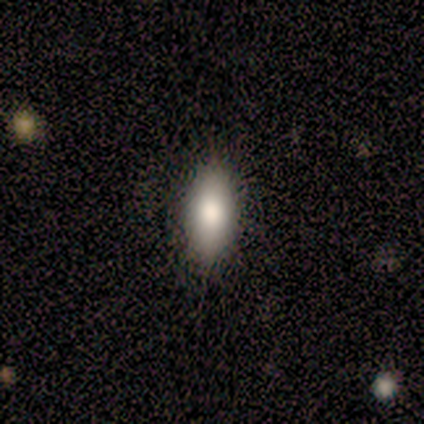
This appears to be a smooth galaxy with no disk features (100%) that is cigar-shaped (100%). Merging: minor disturbance (100%).